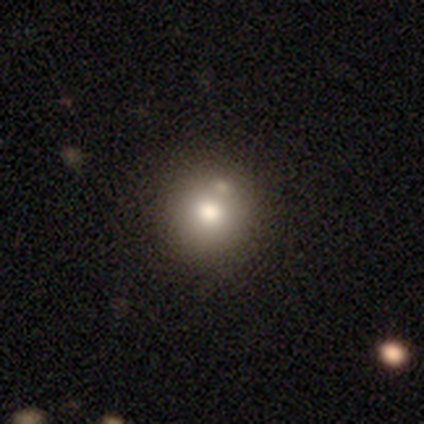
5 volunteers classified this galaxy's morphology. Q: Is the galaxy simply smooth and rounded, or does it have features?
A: smooth — 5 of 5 (100%).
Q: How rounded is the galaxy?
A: round — 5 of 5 (100%).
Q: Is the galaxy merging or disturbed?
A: none — 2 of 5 (40%, tied with merger).